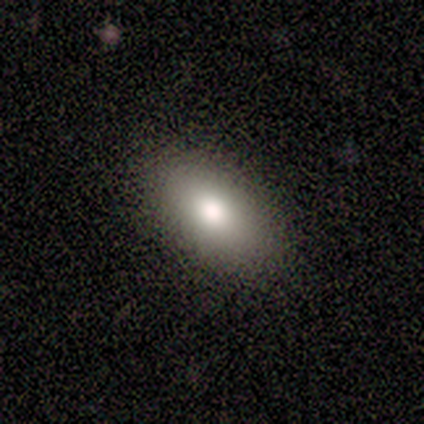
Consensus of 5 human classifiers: Smooth or featured? smooth (80%)
How rounded? in between (75%)
Merging? none (100%)